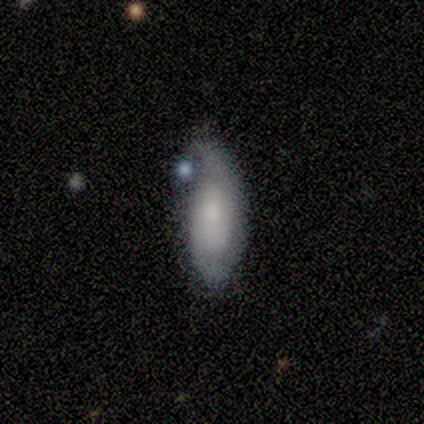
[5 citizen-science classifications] Volunteers were most divided on "merging": minor disturbance: 60%, none: 40%, major disturbance: 0%, merger: 0%. More confident: smooth or featured — smooth (100%); how rounded — in between (100%).